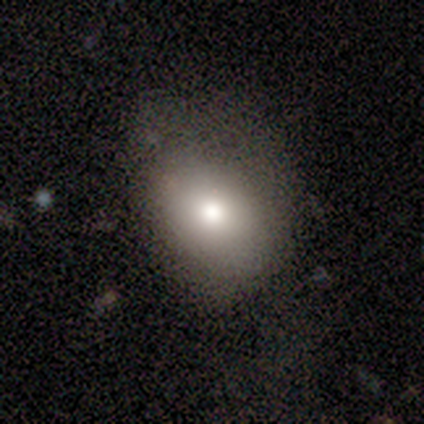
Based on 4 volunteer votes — Smooth or featured? 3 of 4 (75%) said smooth. How rounded? 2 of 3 (67%) said round. Merging? 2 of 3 (67%) said none.